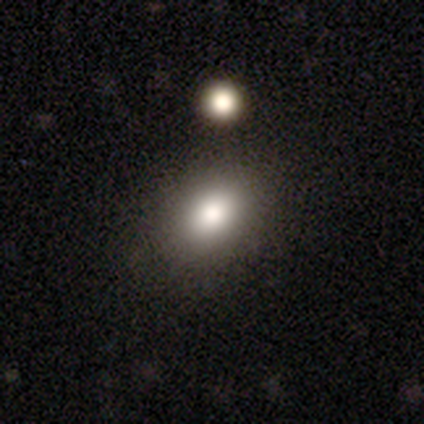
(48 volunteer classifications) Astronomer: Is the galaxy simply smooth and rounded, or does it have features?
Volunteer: smooth — 71%.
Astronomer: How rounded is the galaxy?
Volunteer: in between — 74%.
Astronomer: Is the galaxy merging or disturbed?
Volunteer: none — 78%.